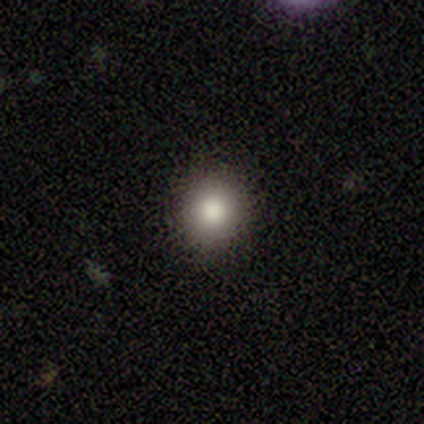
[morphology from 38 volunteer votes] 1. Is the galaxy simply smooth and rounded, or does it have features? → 82% smooth, 13% featured or disk, 5% star or artifact.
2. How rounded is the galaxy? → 97% round, 3% in between, 0% cigar-shaped.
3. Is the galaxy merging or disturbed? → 89% none, 11% minor disturbance, 0% major disturbance, 0% merger.